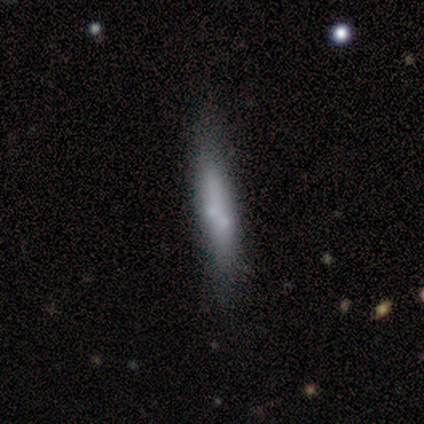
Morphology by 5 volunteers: This appears to be a smooth galaxy with no disk features (60%) that is cigar-shaped (100%). Merging: none (60%).